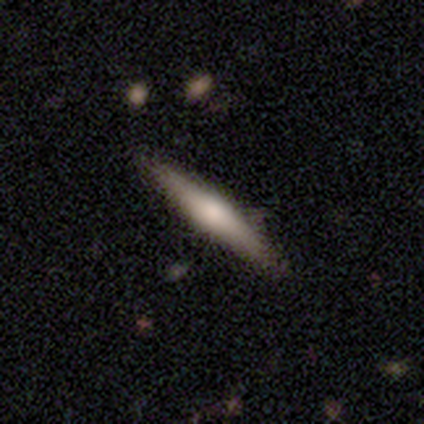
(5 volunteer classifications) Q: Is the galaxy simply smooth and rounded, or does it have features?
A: smooth — 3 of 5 (60%).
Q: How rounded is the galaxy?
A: cigar-shaped — 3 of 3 (100%).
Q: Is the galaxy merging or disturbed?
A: none — 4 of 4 (100%).